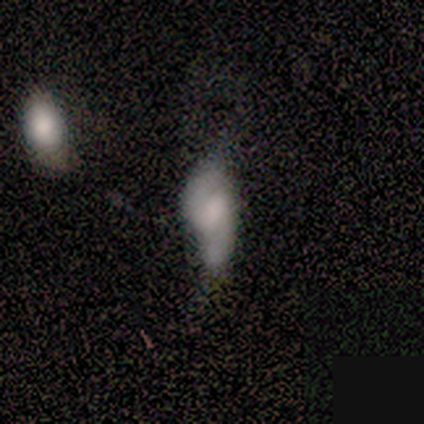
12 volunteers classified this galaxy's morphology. A smooth galaxy with no disk features (50%) that is in between round and cigar-shaped (83%).

Vote fractions:
- Smooth or featured? smooth: 50% / featured or disk: 42% / star or artifact: 8%
- How rounded? in between: 83% / cigar-shaped: 17% / round: 0%
- Merging? major disturbance: 55% / minor disturbance: 27% / none: 9% / merger: 9%